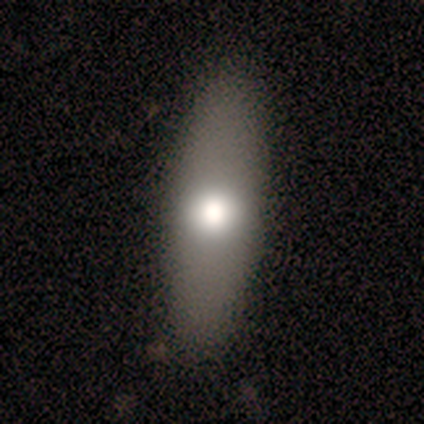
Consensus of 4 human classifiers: Smooth or featured: smooth — 50% (tied with featured or disk — 50%)
How rounded: in between — 50% (tied with cigar-shaped — 50%)
Merging: none — 100%